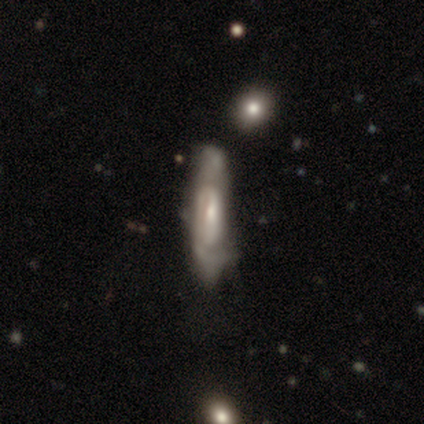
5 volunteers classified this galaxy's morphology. Overall: featured or disk (80%). Edge-on disk: yes (75%). Edge-on bulge: rounded (67%; none 33%). Merging: none (50%, tied with minor disturbance).